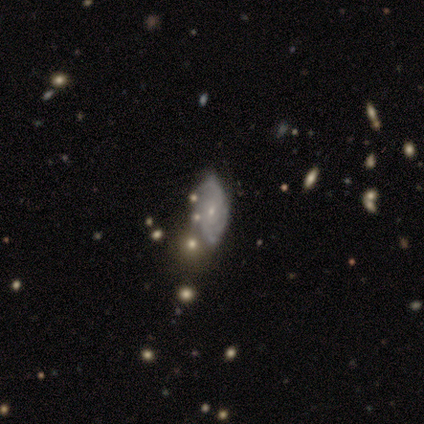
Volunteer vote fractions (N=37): Smooth or featured? featured or disk (86%)
Edge-on disk? no (94%)
Bar? no (67%)
Spiral arms? yes (93%)
Spiral winding? tight (46%, tied with medium)
Spiral arm count? can't tell (43%)
Bulge size? small (80%)
Merging? none (33%)